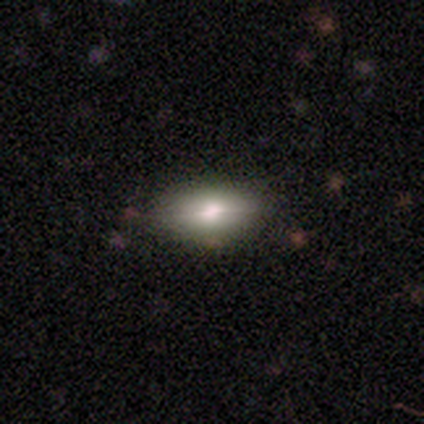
smooth-or-featured: featured or disk: 60% | smooth: 40% | star or artifact: 0%
  disk-edge-on: yes: 67% | no: 33%
    edge-on-bulge: rounded: 100% | boxy: 0% | none: 0%
  merging: none: 80% | minor disturbance: 20% | major disturbance: 0% | merger: 0%